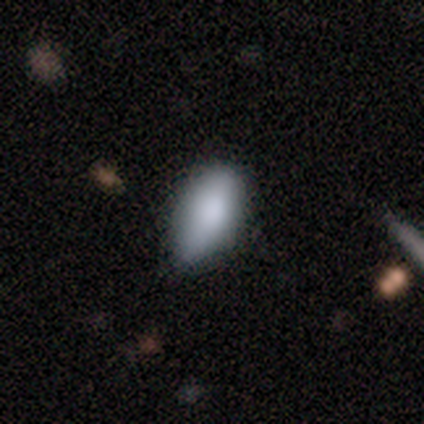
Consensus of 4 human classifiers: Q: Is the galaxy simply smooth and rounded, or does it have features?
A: smooth — 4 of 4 (100%).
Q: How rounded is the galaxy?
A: in between — 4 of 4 (100%).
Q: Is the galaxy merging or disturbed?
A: none — 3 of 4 (75%).